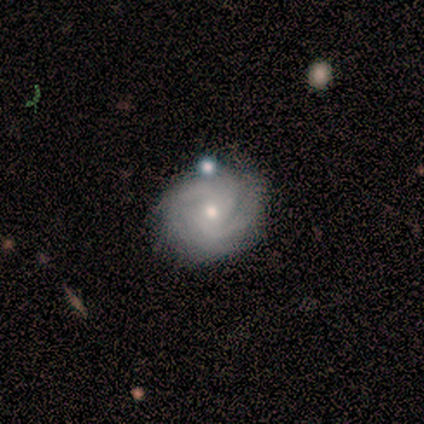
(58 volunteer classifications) This is clearly a featured or disk galaxy (81%). It is clearly not viewed edge-on (98%). Bar: clearly no (85%). Spiral arm pattern: clearly yes (100%). Spiral arm count: marginally 2 (41%). Spiral winding: likely tight (74%). Central bulge: possibly moderate (50%). Merging: likely none (70%).